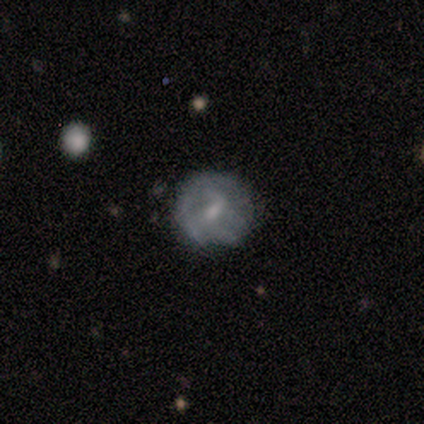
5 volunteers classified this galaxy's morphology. Overall: featured or disk (100%). Edge-on disk: no (100%). Bar: weak (60%; no 40%). Spiral arms: yes (60%; no 40%). Spiral arm count: 1 (33%, tied with 2 and can't tell). Spiral winding: loose (67%; medium 33%). Bulge size: moderate (80%). Merging: none (60%; minor disturbance 20%).